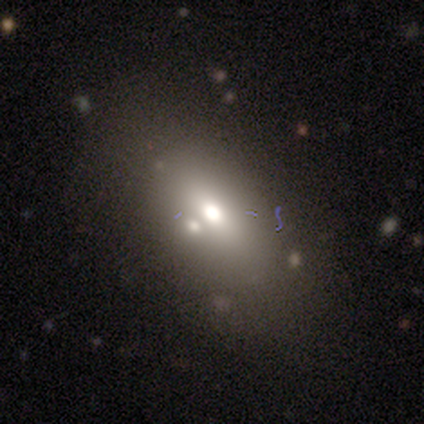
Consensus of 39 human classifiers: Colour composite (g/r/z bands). It shows a smooth galaxy with no disk features (56%) that is in between round and cigar-shaped (82%). Merging: none (72%).